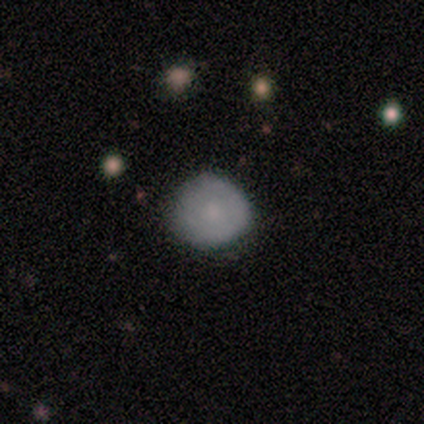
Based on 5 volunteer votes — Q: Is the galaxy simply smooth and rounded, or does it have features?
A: smooth — 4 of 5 (80%).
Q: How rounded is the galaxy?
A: round — 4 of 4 (100%).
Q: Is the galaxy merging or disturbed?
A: none — 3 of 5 (60%).